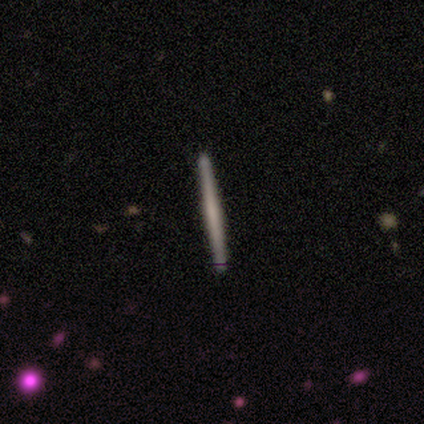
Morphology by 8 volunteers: Q: Smooth or featured?
A: smooth (50%); tied with: featured or disk (50%)
Q: How rounded?
A: cigar-shaped (100%)
Q: Merging?
A: none (88%); runner-up: minor disturbance (12%)